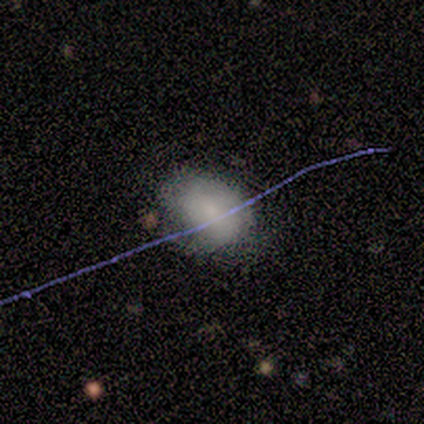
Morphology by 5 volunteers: Q: Smooth or featured?
A: smooth (100%)
Q: How rounded?
A: round (60%); runner-up: in between (40%)
Q: Merging?
A: none (60%); runner-up: minor disturbance (20%)